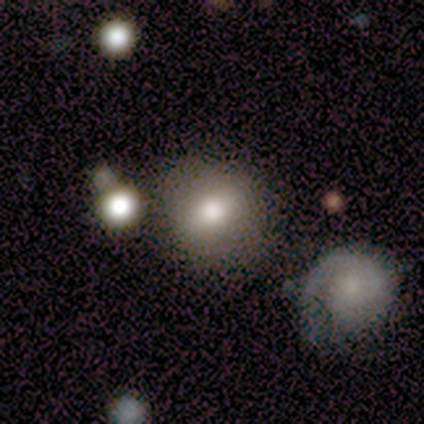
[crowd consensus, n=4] Morphology: type=smooth (100%); roundness=round (100%); merging=none (75%).